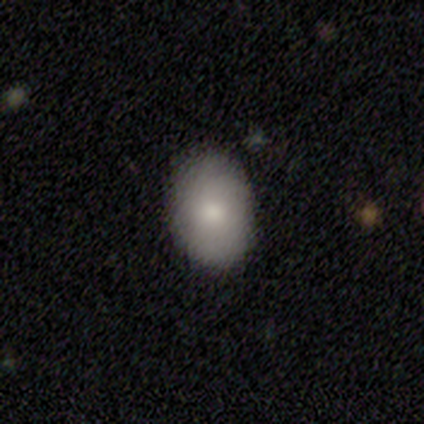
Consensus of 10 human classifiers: smooth 90%, featured or disk 10%, star or artifact 0%. Down the decision tree: how rounded — in between (78%); merging — none (70%).